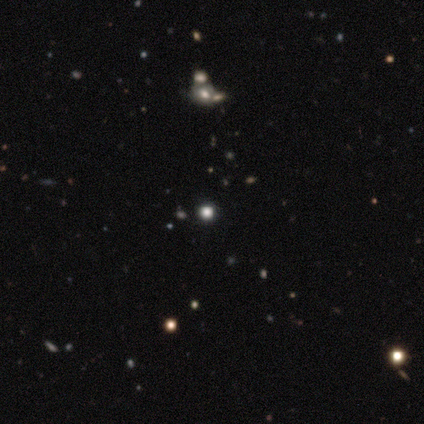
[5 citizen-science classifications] smooth-or-featured: smooth: 40% (tied) | star or artifact: 40% (tied) | featured or disk: 20%
  how-rounded: round: 100% | in between: 0% | cigar-shaped: 0%
  merging: none: 100% | minor disturbance: 0% | major disturbance: 0% | merger: 0%